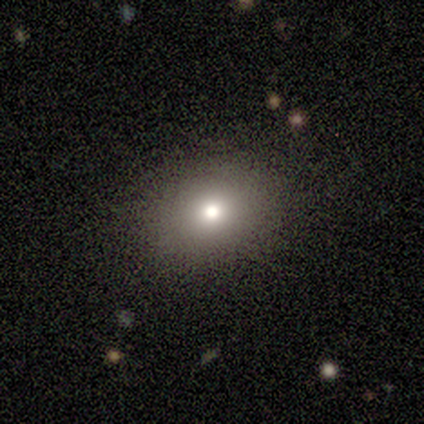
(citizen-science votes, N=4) Smooth or featured? 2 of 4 (50%) said smooth. How rounded? 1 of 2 (50%, tied with in between) said round. Merging? 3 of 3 (100%) said none.